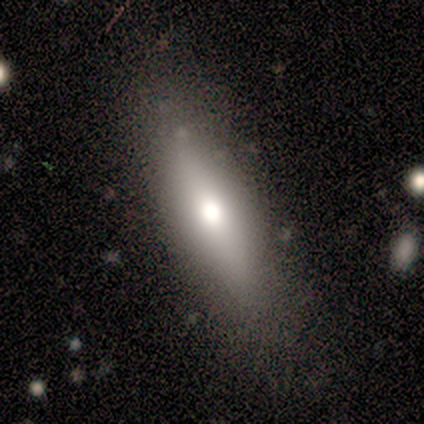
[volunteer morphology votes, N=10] Q: Smooth or featured?
A: smooth (60%); runner-up: featured or disk (30%)
Q: How rounded?
A: cigar-shaped (67%); runner-up: in between (33%)
Q: Merging?
A: none (100%)